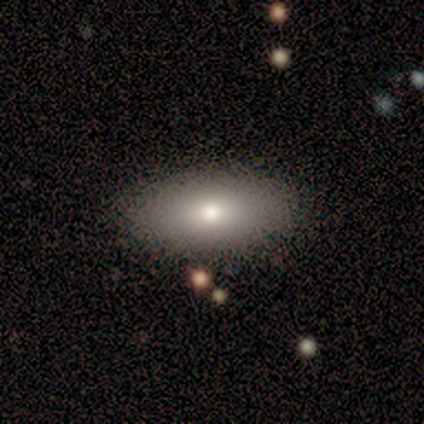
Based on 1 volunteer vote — This appears to be a smooth galaxy with no disk features (100%) that is in between round and cigar-shaped (100%). Merging: none (100%).